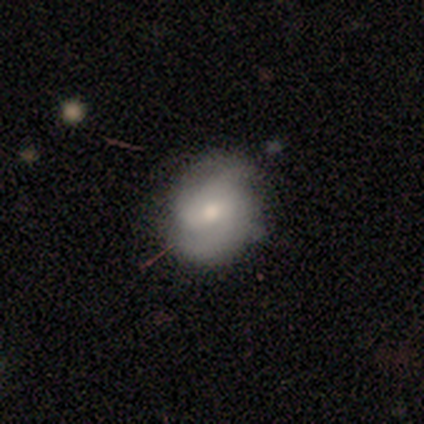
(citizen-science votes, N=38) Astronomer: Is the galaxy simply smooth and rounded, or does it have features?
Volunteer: featured or disk — 58% (runner-up: smooth, 37%).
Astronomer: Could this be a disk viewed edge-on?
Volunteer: no — 91%.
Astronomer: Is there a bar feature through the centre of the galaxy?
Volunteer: weak — 50% (runner-up: no, 45%).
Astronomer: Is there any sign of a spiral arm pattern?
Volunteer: yes — 95%.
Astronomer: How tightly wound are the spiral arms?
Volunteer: medium — 47% (runner-up: tight, 42%).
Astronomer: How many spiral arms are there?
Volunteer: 2 — 37% (runner-up: can't tell, 32%).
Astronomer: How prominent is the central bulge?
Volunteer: moderate — 45% (runner-up: small, 40%).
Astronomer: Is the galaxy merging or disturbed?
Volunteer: none — 56%.